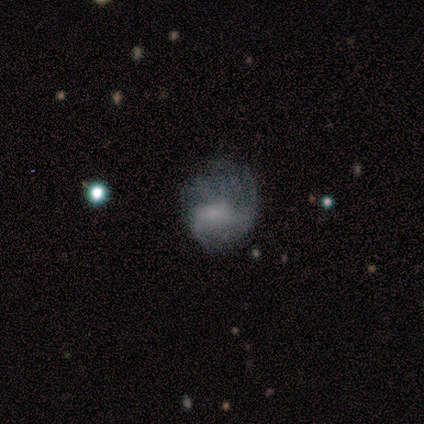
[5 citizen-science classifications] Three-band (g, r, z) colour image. It shows a smooth galaxy with no disk features (40%, tied with featured or disk) that is round (100%). Merging: none (75%).